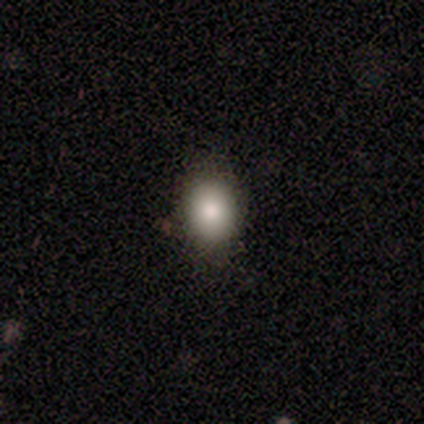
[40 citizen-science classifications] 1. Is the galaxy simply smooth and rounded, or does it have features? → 78% smooth, 15% star or artifact, 8% featured or disk.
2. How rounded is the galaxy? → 65% round, 35% in between, 0% cigar-shaped.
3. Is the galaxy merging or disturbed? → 85% none, 9% minor disturbance, 3% major disturbance, 3% merger.